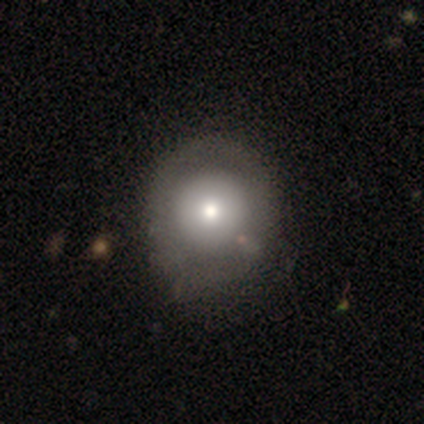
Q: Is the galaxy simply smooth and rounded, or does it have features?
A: featured or disk — 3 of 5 (60%).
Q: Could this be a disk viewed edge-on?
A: no — 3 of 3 (100%).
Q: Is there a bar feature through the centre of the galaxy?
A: no — 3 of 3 (100%).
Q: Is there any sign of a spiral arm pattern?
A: no — 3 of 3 (100%).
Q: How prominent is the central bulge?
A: large — 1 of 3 (33%, tied with moderate and small).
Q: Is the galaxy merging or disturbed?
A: none — 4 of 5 (80%).